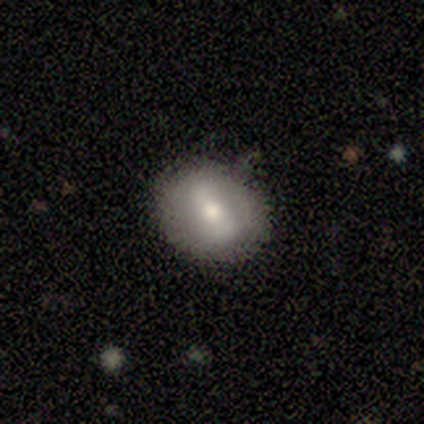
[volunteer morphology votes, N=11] Smooth or featured? smooth (82%)
How rounded? round (100%)
Merging? none (64%)